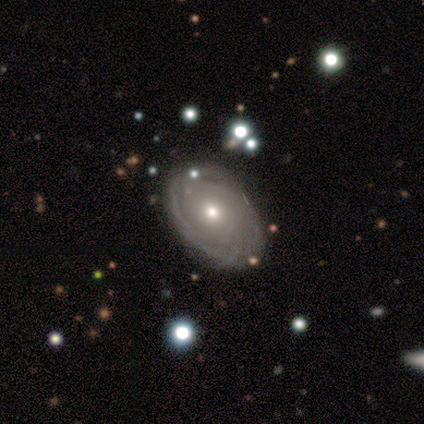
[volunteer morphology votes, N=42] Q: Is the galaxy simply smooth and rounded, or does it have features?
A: featured or disk — 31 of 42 (74%).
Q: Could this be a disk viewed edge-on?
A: no — 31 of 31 (100%).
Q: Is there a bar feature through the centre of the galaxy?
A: no — 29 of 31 (94%).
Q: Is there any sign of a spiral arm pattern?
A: yes — 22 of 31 (71%).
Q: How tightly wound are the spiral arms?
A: tight — 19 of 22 (86%).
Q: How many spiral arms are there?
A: can't tell — 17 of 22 (77%).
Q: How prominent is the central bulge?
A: moderate — 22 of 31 (71%).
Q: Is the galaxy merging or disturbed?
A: none — 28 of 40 (70%).